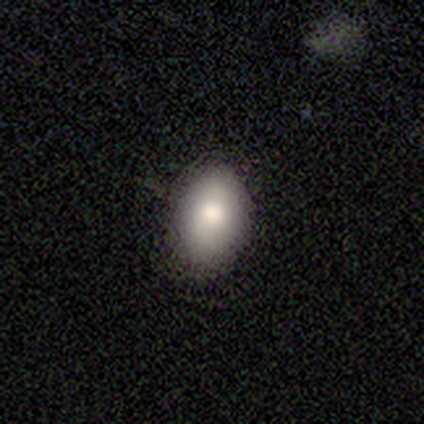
This is likely a smooth galaxy (79%). How rounded: clearly in between (87%). Merging: likely none (78%).